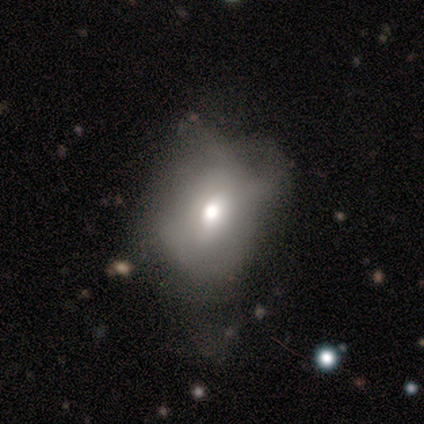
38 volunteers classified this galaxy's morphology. Q: Smooth or featured?
A: smooth (61%); runner-up: featured or disk (34%)
Q: How rounded?
A: in between (61%); runner-up: round (39%)
Q: Merging?
A: minor disturbance (33%); runner-up: major disturbance (31%)